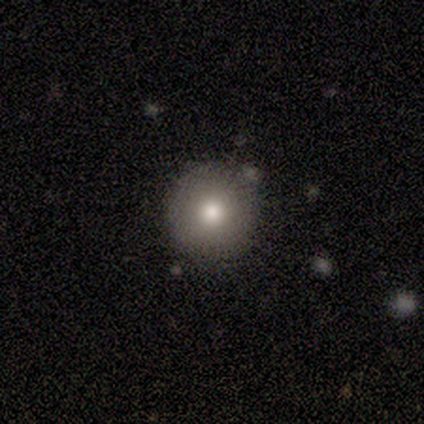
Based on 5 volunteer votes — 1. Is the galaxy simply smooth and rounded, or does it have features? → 100% smooth, 0% featured or disk, 0% star or artifact.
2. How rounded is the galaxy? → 100% round, 0% in between, 0% cigar-shaped.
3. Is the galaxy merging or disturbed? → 80% none, 20% minor disturbance, 0% major disturbance, 0% merger.